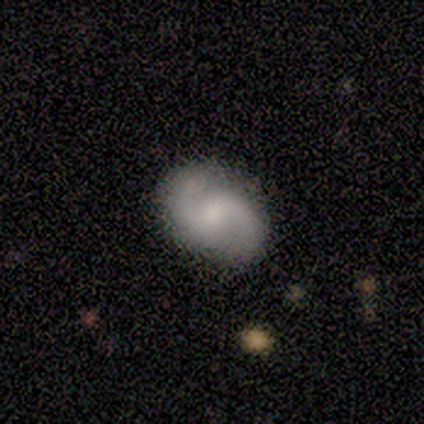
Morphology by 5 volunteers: This appears to be a featured or disk galaxy (40%, tied with star or artifact) with a weak bar (100%), 2 (50%, tied with can't tell) medium (50%, tied with loose) spiral arms (100%) and a moderate central bulge (100%). Merging: none (67%).